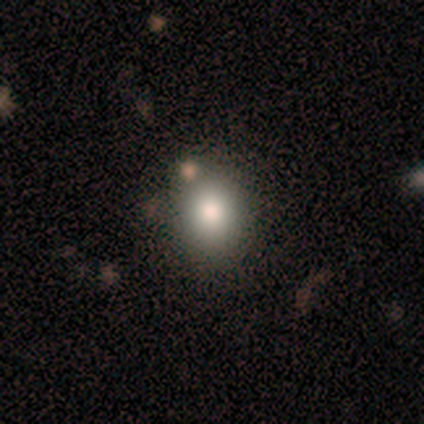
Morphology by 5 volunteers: A smooth galaxy with no disk features (80%) that is round (50%, tied with in between). Merging: none (80%).